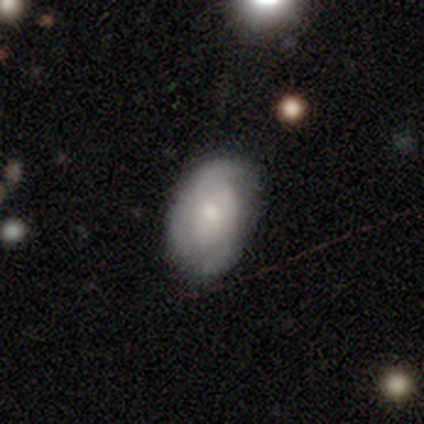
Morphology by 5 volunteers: type=featured or disk (80%); edge-on=no (100%); bar=weak (50%, tied with no); spiral arms=yes (75%); winding=medium (67%); arm count=2 (67%); bulge=small (50%); merging=none (80%).